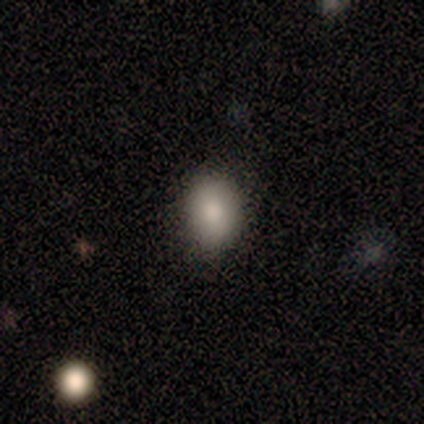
smooth-or-featured: smooth: 50% (tied) | star or artifact: 50% (tied) | featured or disk: 0%
  how-rounded: in between: 100% | round: 0% | cigar-shaped: 0%
  merging: none: 100% | minor disturbance: 0% | major disturbance: 0% | merger: 0%